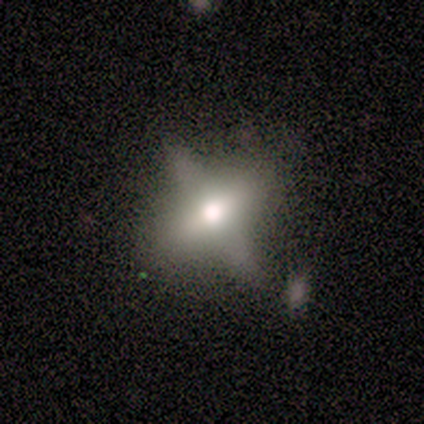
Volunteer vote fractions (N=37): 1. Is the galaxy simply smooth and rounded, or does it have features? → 38% smooth, 35% star or artifact, 27% featured or disk.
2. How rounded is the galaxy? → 36% in between (tied), 36% cigar-shaped (tied), 29% round.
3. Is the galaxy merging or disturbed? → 67% none, 17% major disturbance, 12% merger, 4% minor disturbance.